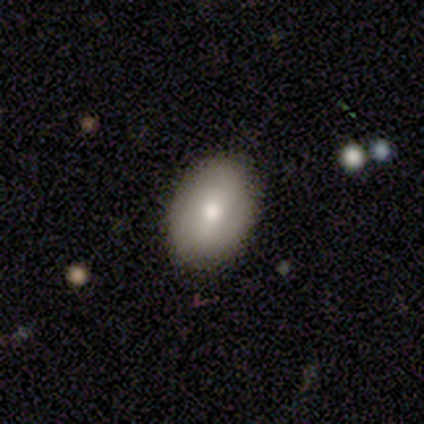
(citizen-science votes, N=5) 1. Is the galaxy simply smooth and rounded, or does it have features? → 60% smooth, 20% featured or disk, 20% star or artifact.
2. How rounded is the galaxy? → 100% in between, 0% round, 0% cigar-shaped.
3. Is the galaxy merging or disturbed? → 100% none, 0% minor disturbance, 0% major disturbance, 0% merger.